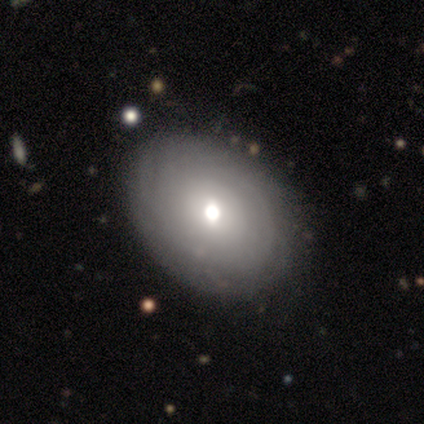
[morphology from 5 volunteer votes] Q: Smooth or featured?
A: featured or disk (60%); runner-up: smooth (40%)
Q: Edge-on disk?
A: no (100%)
Q: Bar?
A: no (67%); runner-up: weak (33%)
Q: Spiral arms?
A: yes (67%); runner-up: no (33%)
Q: Spiral winding?
A: tight (100%)
Q: Spiral arm count?
A: can't tell (100%)
Q: Bulge size?
A: moderate (67%); runner-up: small (33%)
Q: Merging?
A: none (60%); runner-up: minor disturbance (40%)